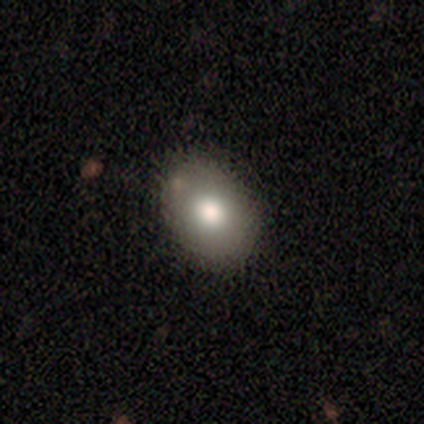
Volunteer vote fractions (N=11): Smooth or featured: smooth — 55% (featured or disk — 36%)
How rounded: in between — 83% (round — 17%)
Merging: none — 90% (minor disturbance — 10%)